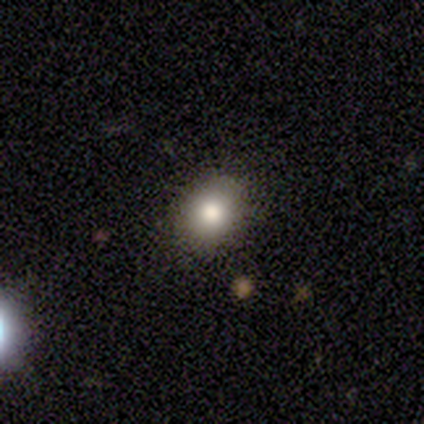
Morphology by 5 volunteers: A smooth galaxy with no disk features (100%) that is in between round and cigar-shaped (60%).

Vote fractions:
- Smooth or featured? smooth: 100% / featured or disk: 0% / star or artifact: 0%
- How rounded? in between: 60% / round: 40% / cigar-shaped: 0%
- Merging? none: 100% / minor disturbance: 0% / major disturbance: 0% / merger: 0%